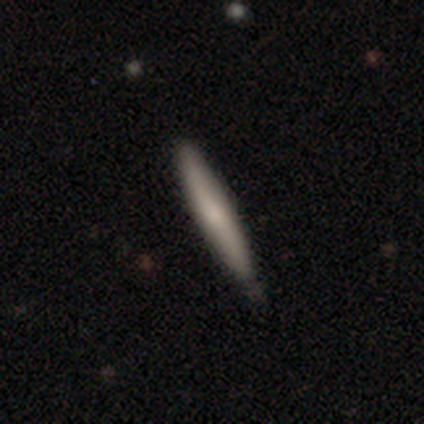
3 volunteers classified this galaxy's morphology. type=smooth (100%); roundness=cigar-shaped (100%); merging=none (100%).